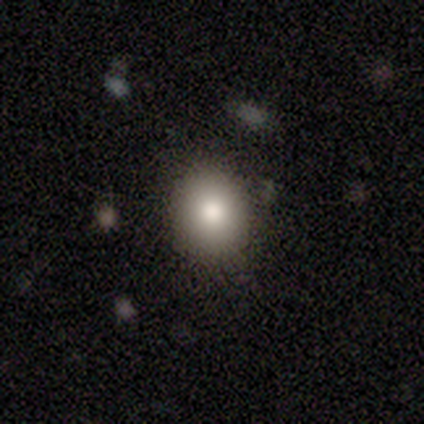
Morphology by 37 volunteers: This appears to be a smooth galaxy with no disk features (70%) that is round (69%). Merging: none (82%).